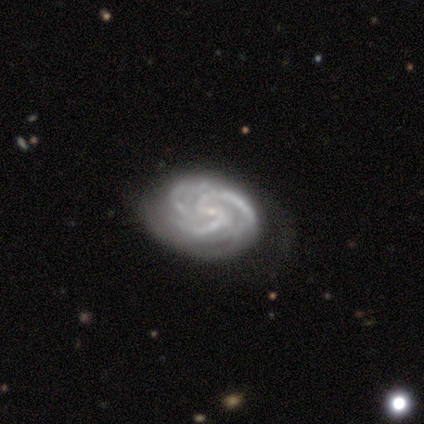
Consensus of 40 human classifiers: Smooth or featured?
  - featured or disk: 98% *
  - smooth: 2%
  - star or artifact: 0%
Edge-on disk?
  - no: 100% *
  - yes: 0%
Bar?
  - weak: 46% *
  - no: 31%
  - strong: 23%
Spiral arms?
  - yes: 100% *
  - no: 0%
Spiral winding?
  - tight: 56% *
  - medium: 44%
  - loose: 0%
Spiral arm count?
  - 3: 54% *
  - 2: 21%
  - can't tell: 13%
  - more than 4: 8%
  - 4: 5%
  - 1: 0%
Bulge size?
  - small: 79% *
  - none: 15%
  - moderate: 5%
  - dominant: 0%
  - large: 0%
Merging?
  - none: 52% *
  - minor disturbance: 12%
  - major disturbance: 12%
  - merger: 2%